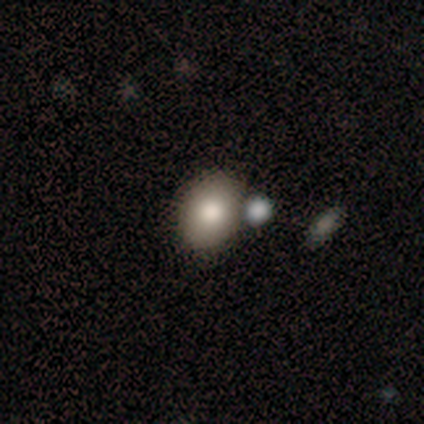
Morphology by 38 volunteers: smooth 89%, featured or disk 5%, star or artifact 5%. Down the decision tree: how rounded — round (56%); merging — none (78%).